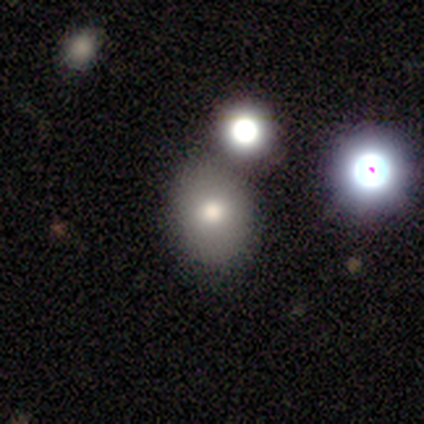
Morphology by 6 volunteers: smooth 83%, star or artifact 17%, featured or disk 0%. Down the decision tree: how rounded — round (100%); merging — none (80%).